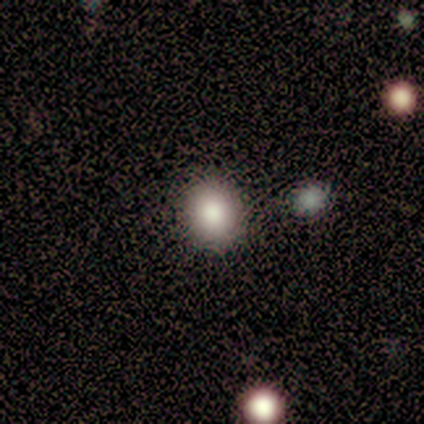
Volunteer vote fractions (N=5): Smooth or featured: smooth — 80% (star or artifact — 20%)
How rounded: round — 75% (in between — 25%)
Merging: none — 100%